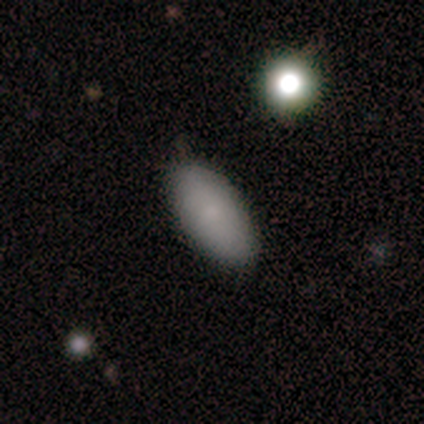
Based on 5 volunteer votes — Smooth or featured? 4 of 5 (80%) said smooth. How rounded? 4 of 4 (100%) said in between. Merging? 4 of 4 (100%) said none.